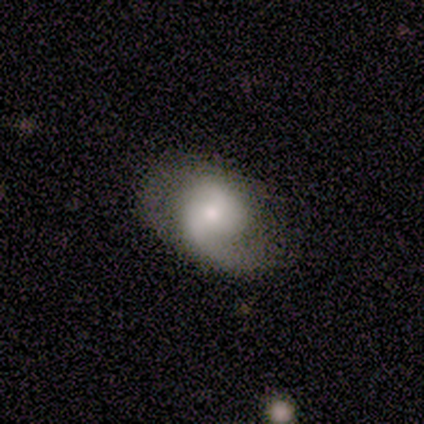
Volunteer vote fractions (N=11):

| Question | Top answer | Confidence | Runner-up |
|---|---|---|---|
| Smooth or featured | featured or disk | 82% | smooth (18%) |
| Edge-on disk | no | 100% | — |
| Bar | no | 67% | weak (33%) |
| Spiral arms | yes | 78% | no (22%) |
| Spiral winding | loose | 57% | tight (29%) |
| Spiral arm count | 2 | 57% | 1 (43%) |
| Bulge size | moderate | 44% | tied: small (44%) |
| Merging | none | 45% | minor disturbance (36%) |